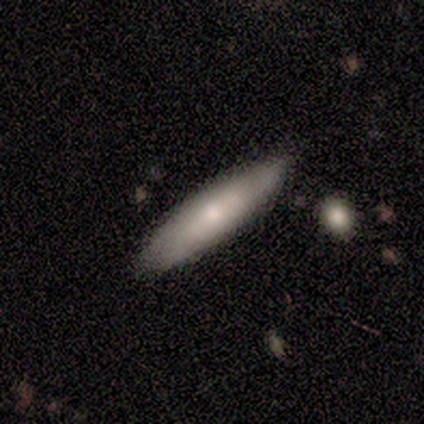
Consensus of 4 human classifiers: Smooth or featured?
  - smooth: 75% *
  - featured or disk: 25%
  - star or artifact: 0%
How rounded?
  - cigar-shaped: 67% *
  - in between: 33%
  - round: 0%
Merging?
  - none: 75% *
  - minor disturbance: 25%
  - major disturbance: 0%
  - merger: 0%